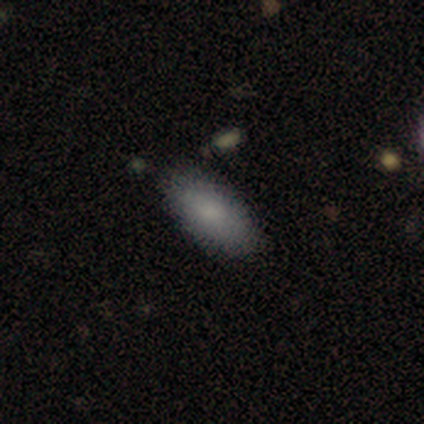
Overall: smooth (80%). How rounded: in between (100%). Merging: none (100%).